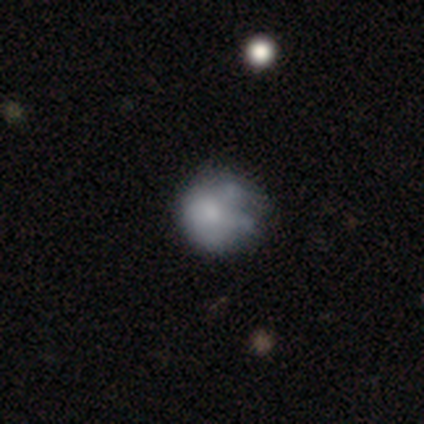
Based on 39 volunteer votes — Volunteers were most divided on "smooth or featured": smooth: 46%, featured or disk: 41%, star or artifact: 13%. More confident: how rounded — round (94%); merging — none (56%).